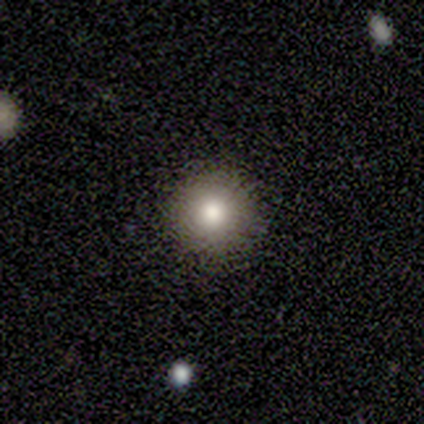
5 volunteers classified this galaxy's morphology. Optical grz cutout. It shows a smooth galaxy with no disk features (80%) that is round (100%). Merging: none (100%).